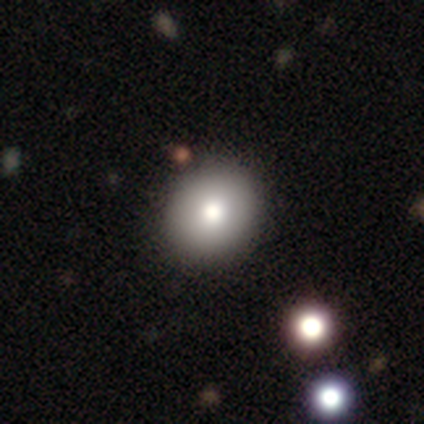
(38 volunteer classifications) Smooth or featured? 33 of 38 (87%) said smooth. How rounded? 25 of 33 (76%) said round. Merging? 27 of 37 (73%) said none.